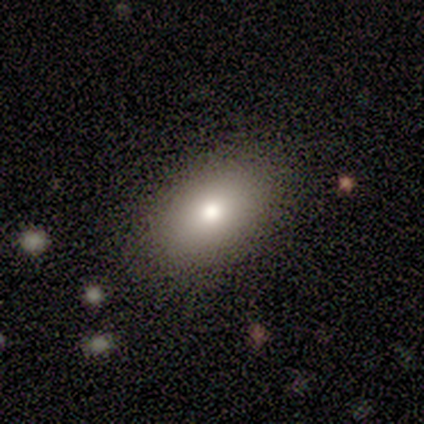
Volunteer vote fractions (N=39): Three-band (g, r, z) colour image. It shows a smooth galaxy with no disk features (85%) that is in between round and cigar-shaped (79%). Merging: none (94%).